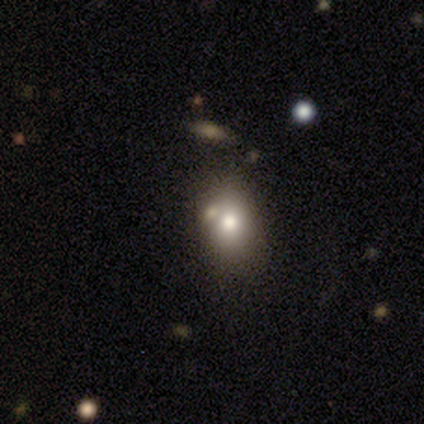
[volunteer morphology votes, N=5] A smooth galaxy with no disk features (100%) that is in between round and cigar-shaped (80%). Merging: none (80%).